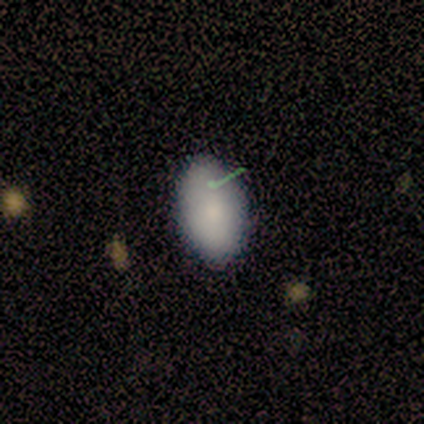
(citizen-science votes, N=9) Q: Smooth or featured?
A: smooth (100%)
Q: How rounded?
A: in between (89%); runner-up: round (11%)
Q: Merging?
A: none (100%)